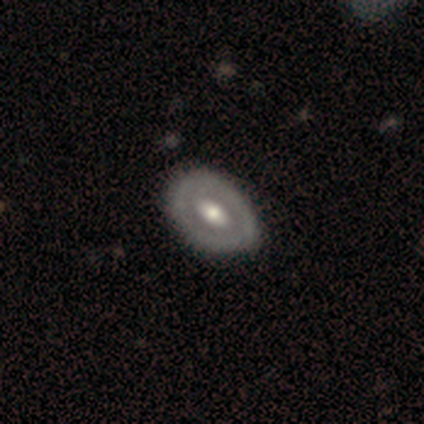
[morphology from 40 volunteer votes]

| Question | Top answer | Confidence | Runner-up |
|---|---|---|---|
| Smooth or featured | featured or disk | 60% | smooth (38%) |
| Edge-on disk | no | 83% | yes (17%) |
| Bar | no | 60% | strong (25%) |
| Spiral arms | no | 80% | yes (20%) |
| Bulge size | moderate | 85% | large (15%) |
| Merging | none | 51% | minor disturbance (5%) |